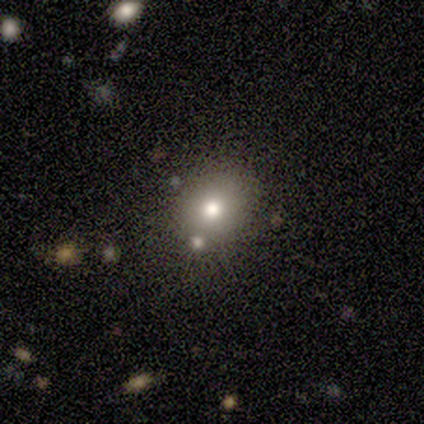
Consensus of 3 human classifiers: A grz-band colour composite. It shows a smooth galaxy with no disk features (67%) that is round (100%). Merging: none (100%).